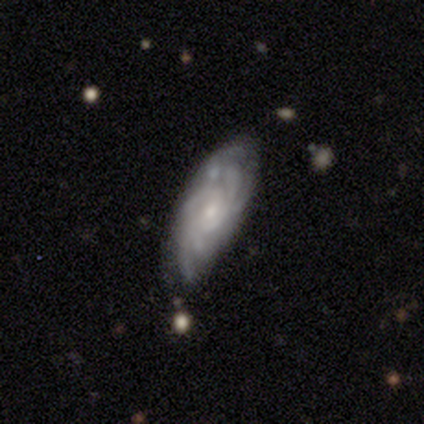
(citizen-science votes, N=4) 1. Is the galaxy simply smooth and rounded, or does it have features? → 75% featured or disk, 25% smooth, 0% star or artifact.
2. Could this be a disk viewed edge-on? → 100% no, 0% yes.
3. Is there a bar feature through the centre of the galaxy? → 67% no, 33% strong, 0% weak.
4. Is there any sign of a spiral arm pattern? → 100% yes, 0% no.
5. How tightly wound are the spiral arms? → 67% tight, 33% loose, 0% medium.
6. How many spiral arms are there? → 33% 3 (tied), 33% more than 4 (tied), 33% can't tell (tied), 0% 1, 0% 2, 0% 4.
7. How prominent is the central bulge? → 100% small, 0% dominant, 0% large, 0% moderate, 0% none.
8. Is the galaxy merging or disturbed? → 75% none, 25% minor disturbance, 0% major disturbance, 0% merger.